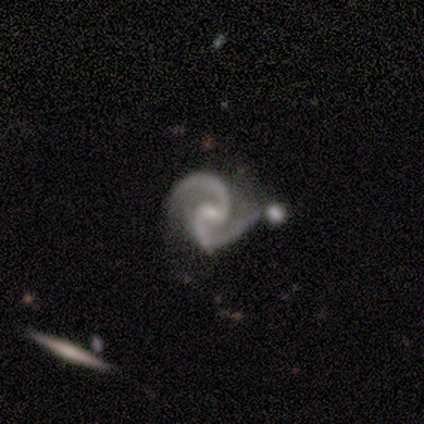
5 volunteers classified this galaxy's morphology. Smooth or featured: featured or disk — 100%
Edge-on disk: no — 100%
Bar: no — 60% (strong — 20%)
Spiral arms: yes — 100%
Spiral winding: medium — 100%
Spiral arm count: 2 — 100%
Bulge size: small — 80% (none — 20%)
Merging: none — 40% (tied with merger — 40%)